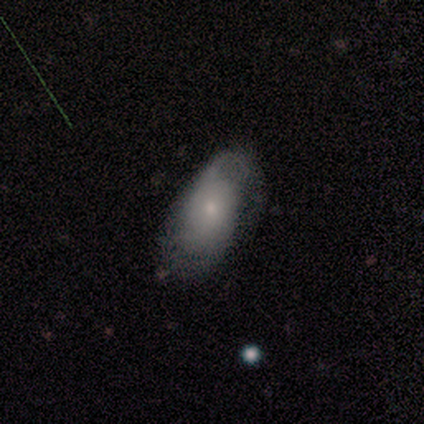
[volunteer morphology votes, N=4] This is likely a smooth galaxy (75%). How rounded: clearly in between (100%). Merging: likely none (67%).